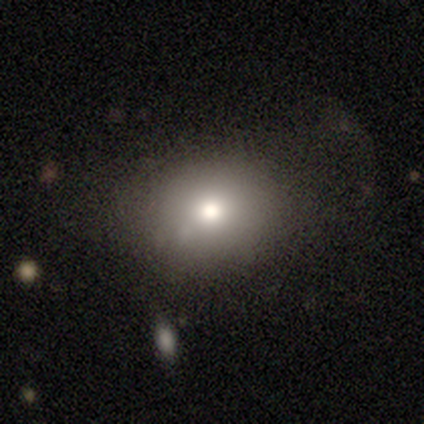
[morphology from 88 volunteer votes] A smooth galaxy with no disk features (70%) that is round (58%). Merging: none (68%).